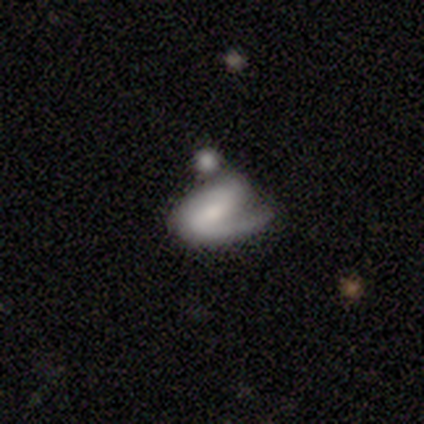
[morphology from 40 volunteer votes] A featured or disk galaxy (78%) with a weak bar (45%), 1 (62%) medium (54%) spiral arms (84%) and a moderate central bulge (42%). Merging: merger (31%).